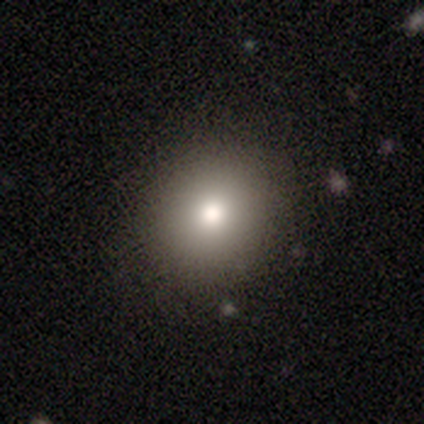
Smooth or featured? 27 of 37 (73%) said smooth. How rounded? 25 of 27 (93%) said round. Merging? 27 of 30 (90%) said none.